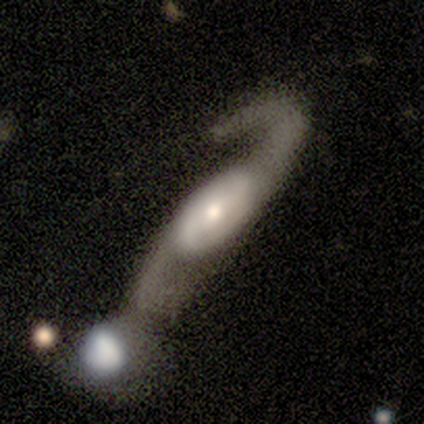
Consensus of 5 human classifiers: Smooth or featured?
  - featured or disk: 100% *
  - smooth: 0%
  - star or artifact: 0%
Edge-on disk?
  - no: 80% *
  - yes: 20%
Bar?
  - strong: 50% * (tied)
  - no: 50% * (tied)
  - weak: 0%
Spiral arms?
  - yes: 100% *
  - no: 0%
Spiral winding?
  - loose: 100% *
  - tight: 0%
  - medium: 0%
Spiral arm count?
  - 2: 100% *
  - 1: 0%
  - 3: 0%
  - 4: 0%
  - more than 4: 0%
  - can't tell: 0%
Bulge size?
  - large: 50% *
  - moderate: 25%
  - small: 25%
  - dominant: 0%
  - none: 0%
Merging?
  - major disturbance: 40% * (tied)
  - merger: 40% * (tied)
  - minor disturbance: 20%
  - none: 0%